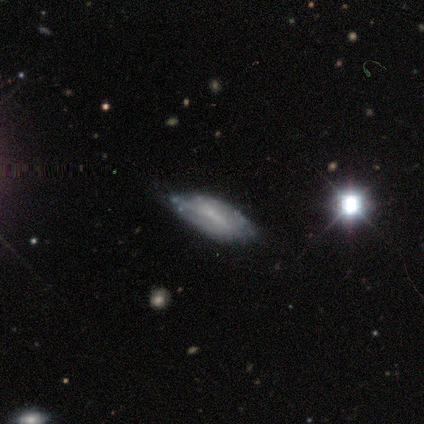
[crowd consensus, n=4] Smooth or featured?
  - smooth: 50% * (tied)
  - featured or disk: 50% * (tied)
  - star or artifact: 0%
How rounded?
  - round: 50% * (tied)
  - in between: 50% * (tied)
  - cigar-shaped: 0%
Merging?
  - none: 75% *
  - minor disturbance: 25%
  - major disturbance: 0%
  - merger: 0%